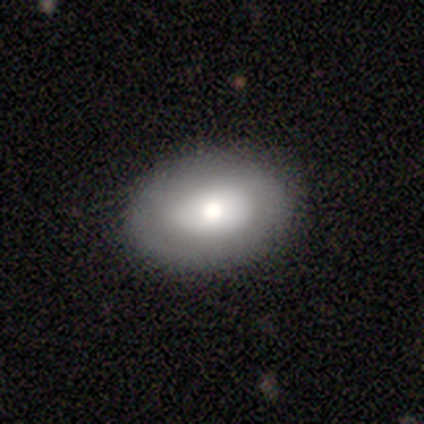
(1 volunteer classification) smooth_or_featured: smooth (p=1.00)
how_rounded: round (p=1.00)
merging: none (p=1.00)